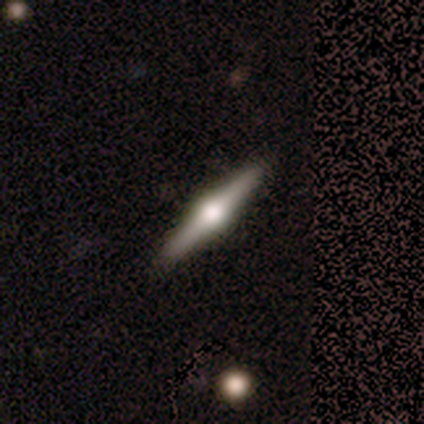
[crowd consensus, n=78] This is likely a featured or disk galaxy (79%). It is clearly viewed edge-on (100%). Edge-on bulge: clearly rounded (97%). Merging: possibly none (49%).